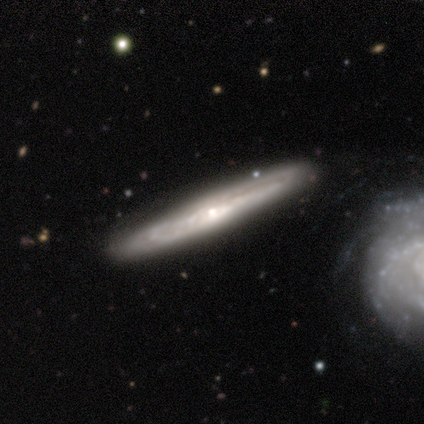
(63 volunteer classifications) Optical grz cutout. It shows a featured or disk galaxy (90%) viewed edge-on (75%) with a rounded central bulge (63%). Merging: none (84%).